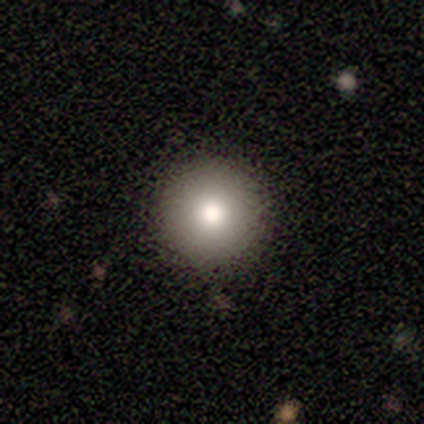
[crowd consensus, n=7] Smooth or featured: smooth — 57% (star or artifact — 29%)
How rounded: round — 100%
Merging: none — 80% (minor disturbance — 20%)